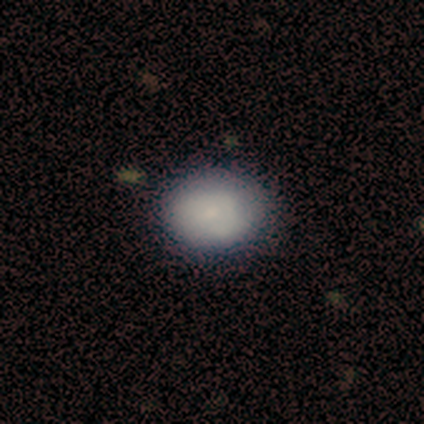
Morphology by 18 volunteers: A smooth galaxy with no disk features (83%) that is in between round and cigar-shaped (53%). Merging: none (78%).